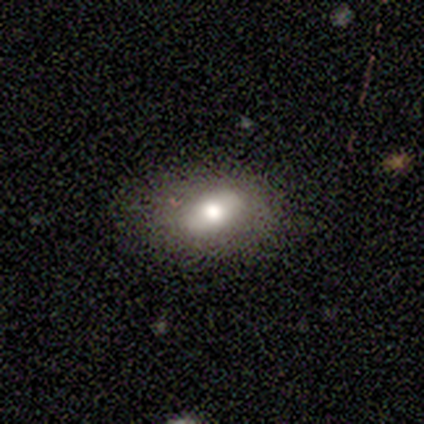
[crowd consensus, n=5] Smooth or featured? smooth (60%)
How rounded? in between (100%)
Merging? none (80%)